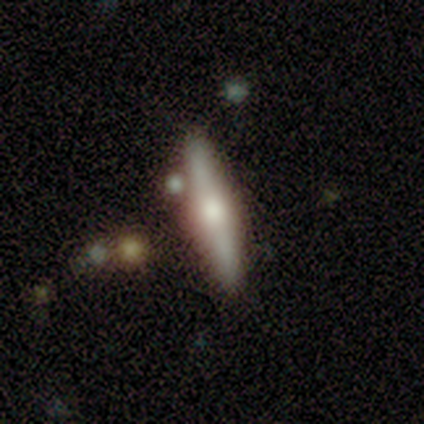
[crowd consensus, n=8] Smooth or featured? smooth (50%, tied with featured or disk)
How rounded? cigar-shaped (100%)
Merging? none (88%)